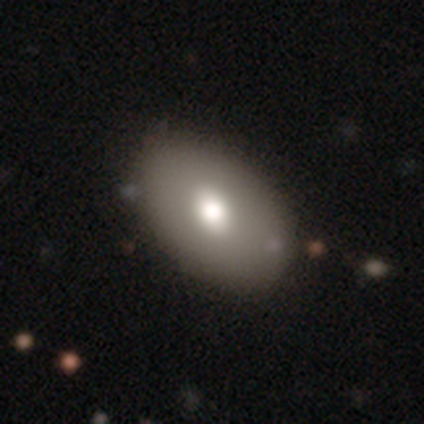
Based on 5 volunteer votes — Morphology: type=smooth (100%); roundness=in between (100%); merging=none (80%).